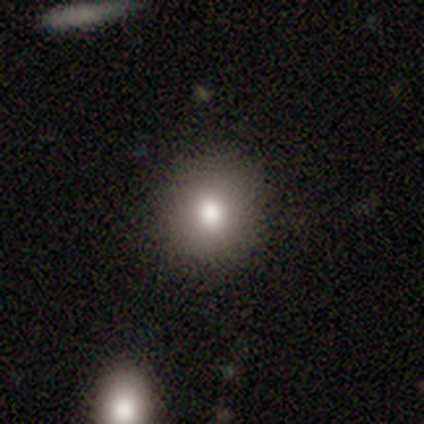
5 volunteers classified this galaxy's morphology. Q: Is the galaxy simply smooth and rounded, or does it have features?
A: featured or disk — 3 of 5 (60%).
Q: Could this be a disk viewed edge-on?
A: no — 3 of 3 (100%).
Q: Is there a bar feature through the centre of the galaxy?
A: no — 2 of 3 (67%).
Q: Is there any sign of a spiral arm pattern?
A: no — 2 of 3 (67%).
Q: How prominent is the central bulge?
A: moderate — 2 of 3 (67%).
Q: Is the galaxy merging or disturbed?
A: none — 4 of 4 (100%).